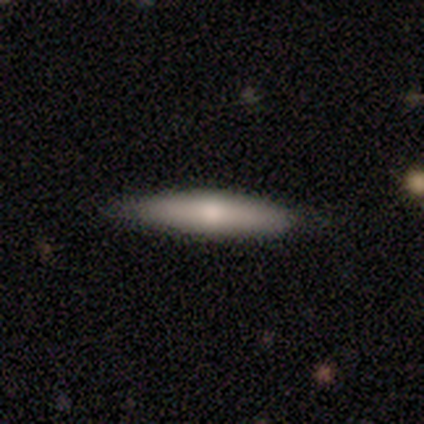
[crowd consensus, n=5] Overall: featured or disk (80%). Edge-on disk: yes (100%). Edge-on bulge: rounded (75%). Merging: none (80%).